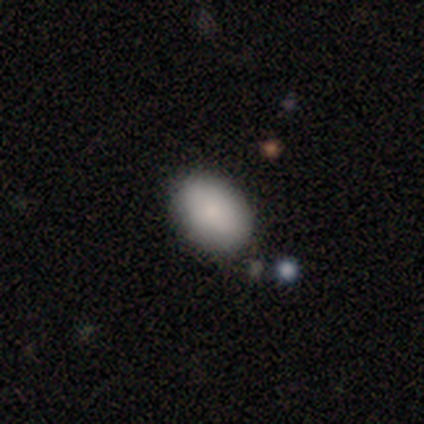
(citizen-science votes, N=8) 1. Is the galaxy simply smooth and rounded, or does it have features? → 75% smooth, 12% featured or disk, 12% star or artifact.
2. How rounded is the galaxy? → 100% in between, 0% round, 0% cigar-shaped.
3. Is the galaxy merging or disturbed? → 100% none, 0% minor disturbance, 0% major disturbance, 0% merger.